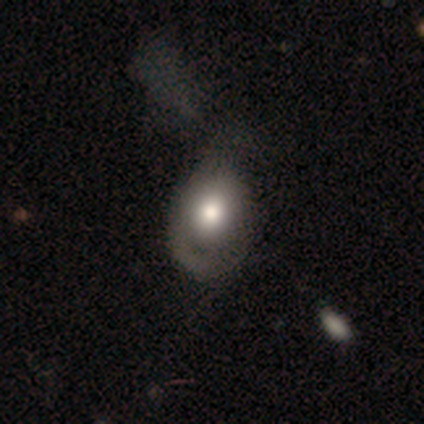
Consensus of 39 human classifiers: Smooth or featured?
  - smooth: 54% *
  - featured or disk: 41%
  - star or artifact: 5%
How rounded?
  - in between: 67% *
  - round: 29%
  - cigar-shaped: 5%
Merging?
  - minor disturbance: 27% *
  - none: 24%
  - major disturbance: 22%
  - merger: 3%